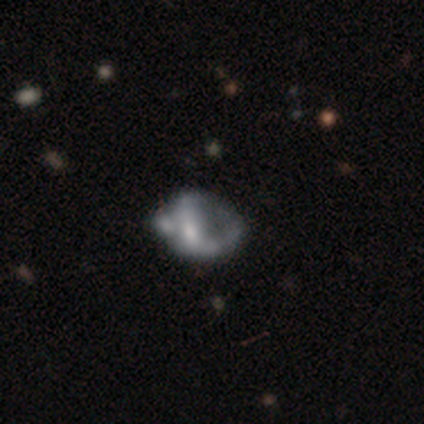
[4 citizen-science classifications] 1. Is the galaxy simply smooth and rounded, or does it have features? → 50% smooth (tied), 50% featured or disk (tied), 0% star or artifact.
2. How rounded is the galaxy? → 100% in between, 0% round, 0% cigar-shaped.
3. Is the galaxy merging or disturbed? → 50% major disturbance, 25% minor disturbance, 25% merger, 0% none.